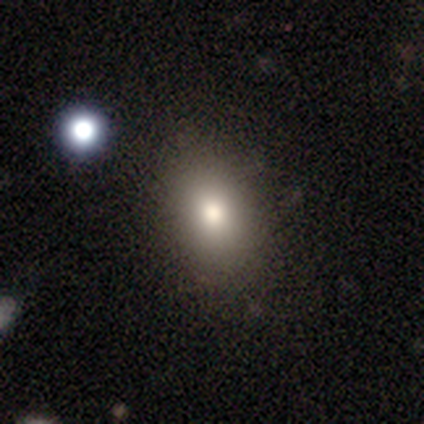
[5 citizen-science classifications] This appears to be a smooth galaxy with no disk features (100%) that is in between round and cigar-shaped (80%). Merging: none (100%).